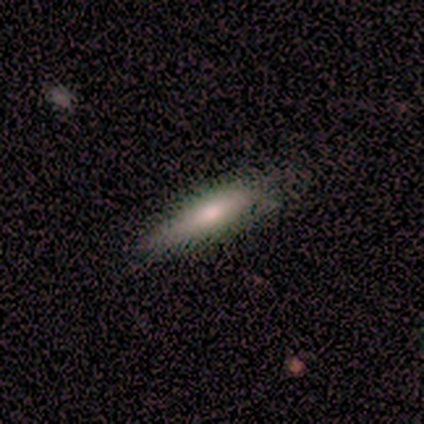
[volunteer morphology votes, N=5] A smooth galaxy with no disk features (80%) that is cigar-shaped (100%). Merging: none (100%).